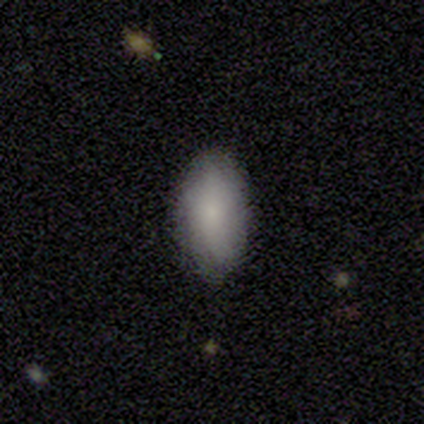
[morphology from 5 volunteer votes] A smooth galaxy with no disk features (60%) that is in between round and cigar-shaped (100%). Merging: none (100%).